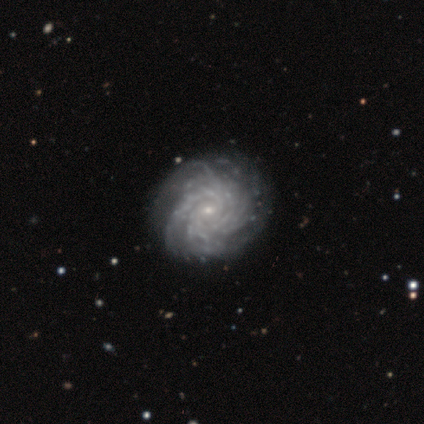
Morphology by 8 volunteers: Smooth or featured? 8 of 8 (100%) said featured or disk. Edge-on disk? 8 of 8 (100%) said no. Bar? 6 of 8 (75%) said no. Spiral arms? 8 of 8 (100%) said yes. Spiral winding? 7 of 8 (88%) said tight. Spiral arm count? 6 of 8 (75%) said more than 4. Bulge size? 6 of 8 (75%) said small. Merging? 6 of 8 (75%) said none.